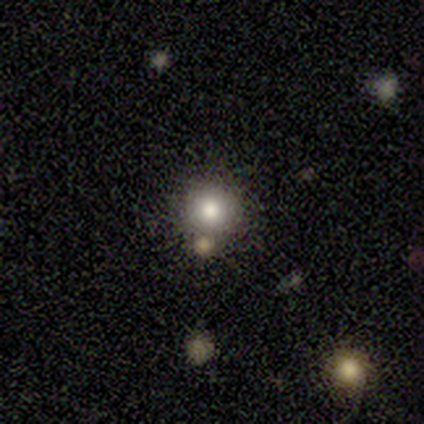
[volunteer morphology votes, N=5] A smooth galaxy with no disk features (40%, tied with featured or disk) that is round (100%). Merging: none (100%).